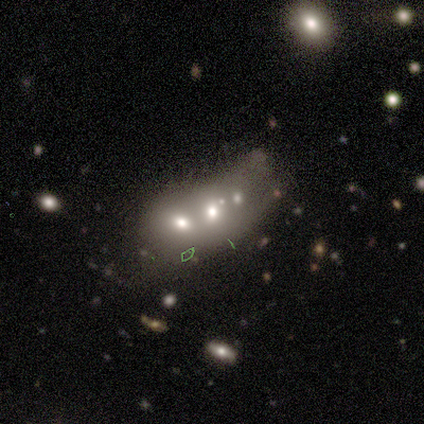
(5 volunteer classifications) Morphology: type=smooth (60%); roundness=round (100%); merging=merger (75%).